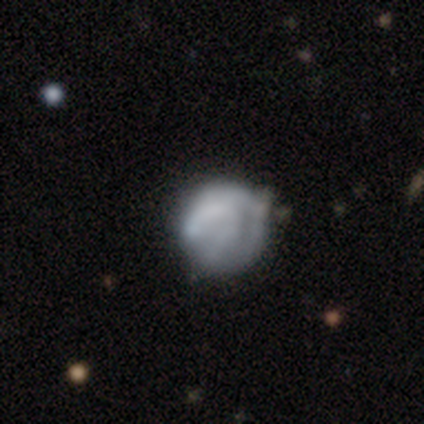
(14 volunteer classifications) Morphology: type=smooth (57%); roundness=round (88%); merging=minor disturbance (54%).